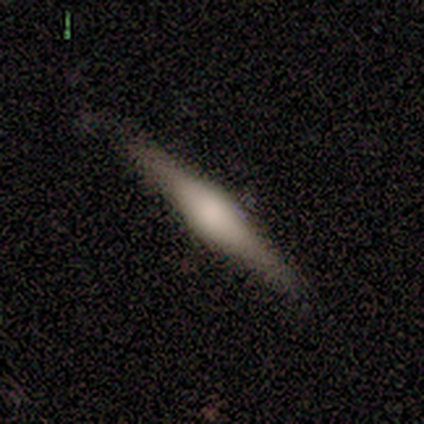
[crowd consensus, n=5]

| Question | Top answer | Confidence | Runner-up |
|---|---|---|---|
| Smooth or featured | featured or disk | 80% | smooth (20%) |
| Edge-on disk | yes | 100% | — |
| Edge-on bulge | boxy | 50% | tied: rounded (50%) |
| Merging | none | 60% | minor disturbance (40%) |